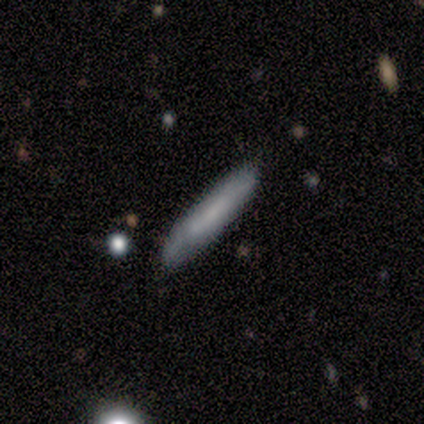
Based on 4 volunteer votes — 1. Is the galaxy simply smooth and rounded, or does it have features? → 75% smooth, 25% star or artifact, 0% featured or disk.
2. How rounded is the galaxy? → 67% cigar-shaped, 33% in between, 0% round.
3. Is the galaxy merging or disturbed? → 100% none, 0% minor disturbance, 0% major disturbance, 0% merger.